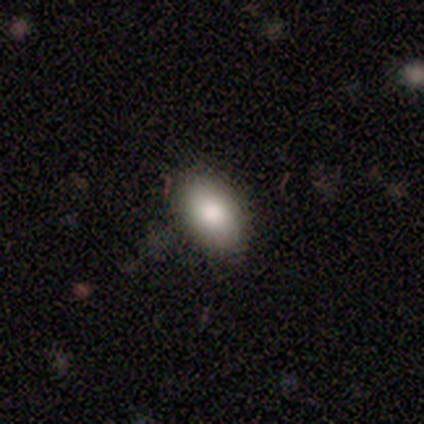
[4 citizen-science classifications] Q: Smooth or featured?
A: smooth (100%)
Q: How rounded?
A: in between (75%); runner-up: round (25%)
Q: Merging?
A: none (50%); tied with: minor disturbance (50%)